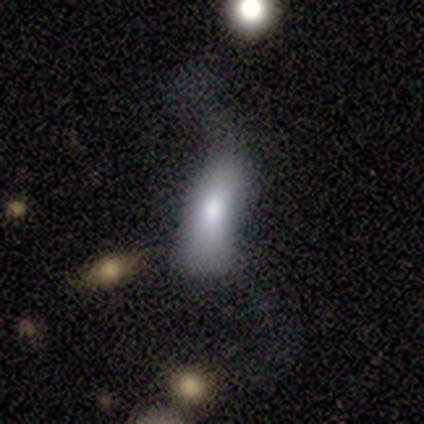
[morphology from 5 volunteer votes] Smooth or featured? smooth (100%)
How rounded? in between (100%)
Merging? major disturbance (80%)